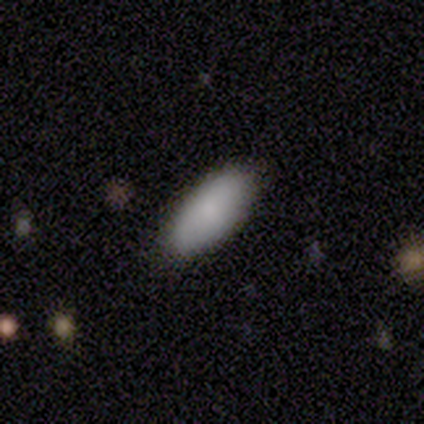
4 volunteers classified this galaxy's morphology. Smooth or featured?
  - smooth: 100% *
  - featured or disk: 0%
  - star or artifact: 0%
How rounded?
  - in between: 100% *
  - round: 0%
  - cigar-shaped: 0%
Merging?
  - none: 100% *
  - minor disturbance: 0%
  - major disturbance: 0%
  - merger: 0%